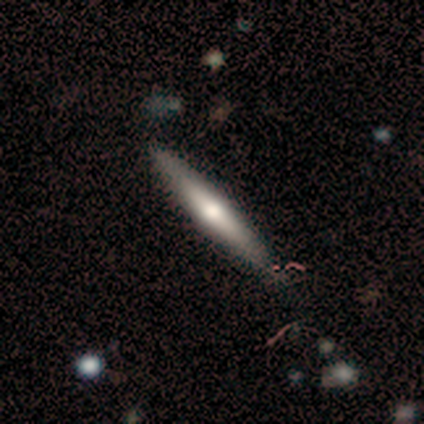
Volunteers were most divided on "smooth or featured": featured or disk: 54%, smooth: 41%, star or artifact: 5%. Remaining: edge-on disk — yes (95%); edge-on bulge — rounded (90%); merging — none (49%).